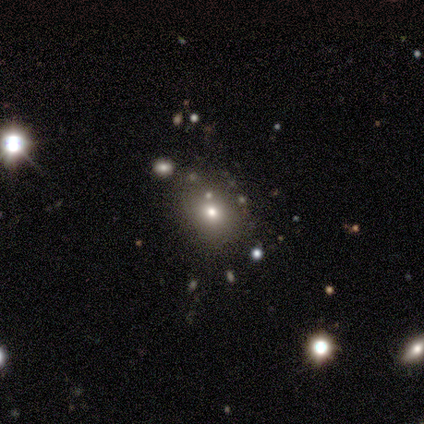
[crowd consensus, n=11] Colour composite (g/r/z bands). It shows a smooth galaxy with no disk features (55%) that is in between round and cigar-shaped (67%). Merging: none (100%).